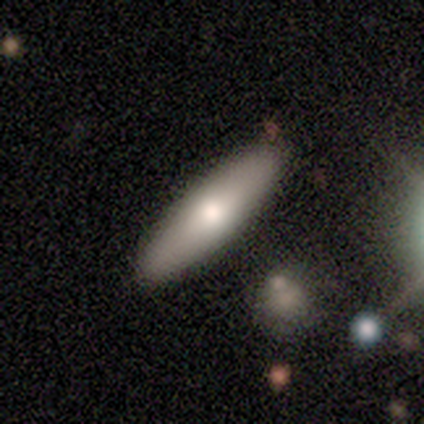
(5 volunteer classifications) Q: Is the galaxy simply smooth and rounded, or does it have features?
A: smooth — 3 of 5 (60%).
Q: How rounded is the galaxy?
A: cigar-shaped — 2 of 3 (67%).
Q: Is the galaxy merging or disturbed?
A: none — 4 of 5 (80%).